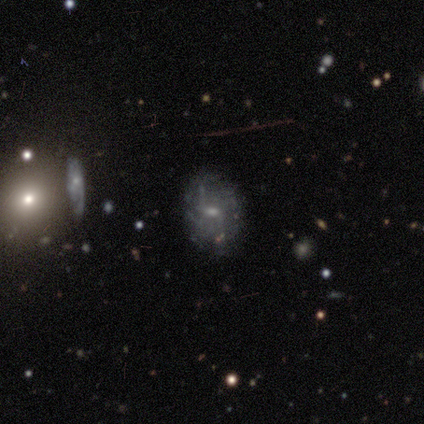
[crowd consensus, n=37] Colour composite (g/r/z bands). It shows a featured or disk galaxy (65%) with a weak bar (57%), loose (71%) spiral arms (61%) and a small central bulge (48%). Merging: none (65%).